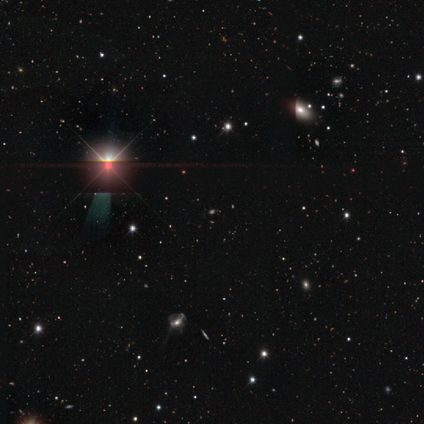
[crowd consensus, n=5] Smooth or featured? star or artifact (100%)